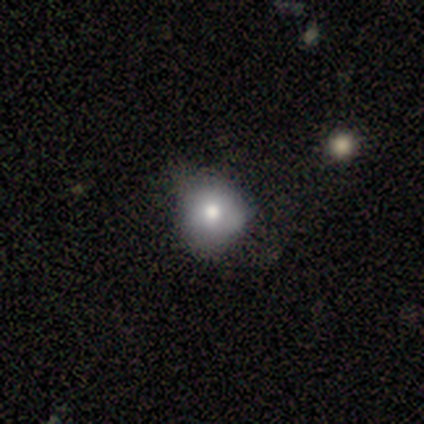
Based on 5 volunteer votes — smooth 80%, featured or disk 20%, star or artifact 0%. Down the decision tree: how rounded — round (75%); merging — none (60%).